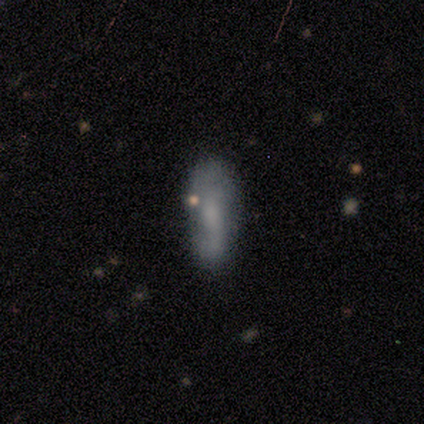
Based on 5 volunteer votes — Volunteers were most divided on "smooth or featured" (2-way tie): smooth: 40%, featured or disk: 40%, star or artifact: 20%; "how rounded" (2-way tie): in between: 50%, cigar-shaped: 50%, round: 0%; "merging" (2-way tie): none: 50%, merger: 50%, minor disturbance: 0%, major disturbance: 0%.